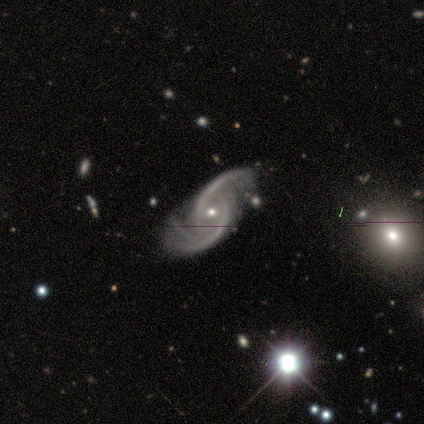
Morphology: type=featured or disk (80%); edge-on=no (100%); bar=no (50%); spiral arms=yes (100%); winding=medium (75%); arm count=2 (75%); bulge=small (100%); merging=none (100%).